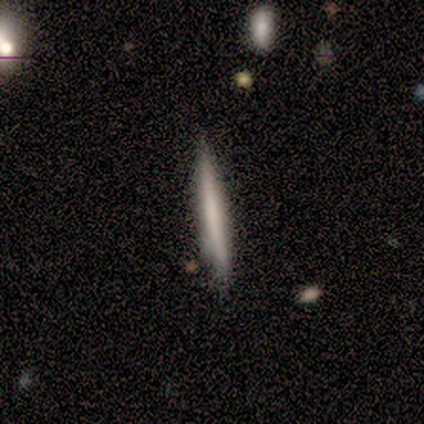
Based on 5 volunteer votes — Q: Smooth or featured?
A: featured or disk (60%); runner-up: smooth (40%)
Q: Edge-on disk?
A: yes (100%)
Q: Edge-on bulge?
A: none (100%)
Q: Merging?
A: none (60%); runner-up: minor disturbance (20%)